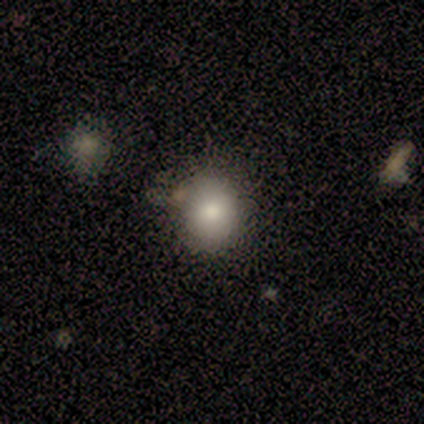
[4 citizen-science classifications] This appears to be a smooth galaxy with no disk features (75%) that is round (67%). Merging: none (100%).